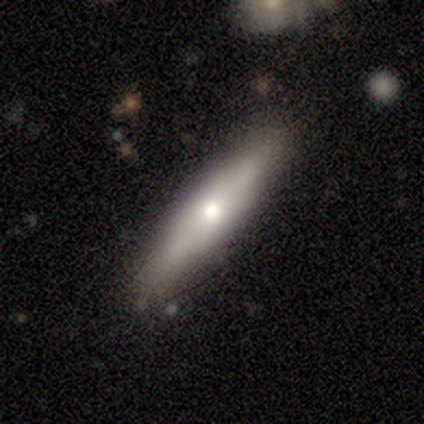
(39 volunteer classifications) A smooth galaxy with no disk features (46%, tied with featured or disk) that is cigar-shaped (94%). Merging: none (86%).